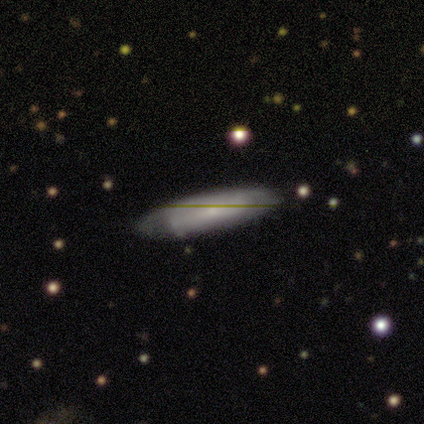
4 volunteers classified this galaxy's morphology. Smooth or featured? smooth (50%, tied with featured or disk)
How rounded? cigar-shaped (100%)
Merging? none (75%)